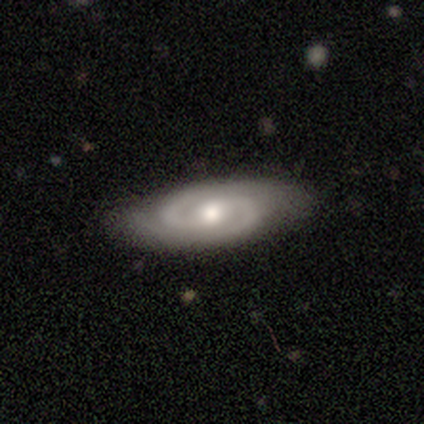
A featured or disk galaxy (97%) with no bar (67%), 2 (97%) medium (56%) spiral arms (100%) and a moderate central bulge (75%). Merging: none (79%).